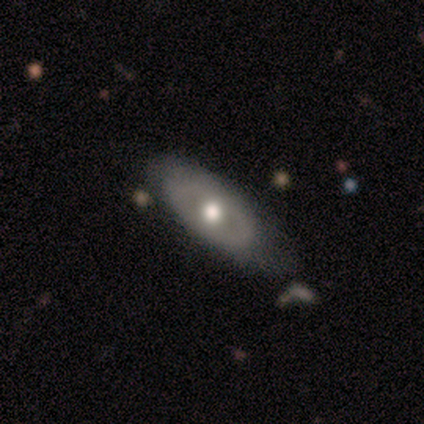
Volunteers were most divided on "smooth or featured": featured or disk: 60%, smooth: 40%, star or artifact: 0%. More confident: bar — no (100%); spiral arms — no (100%); bulge size — moderate (100%); edge-on disk — no (67%); merging — none (60%).